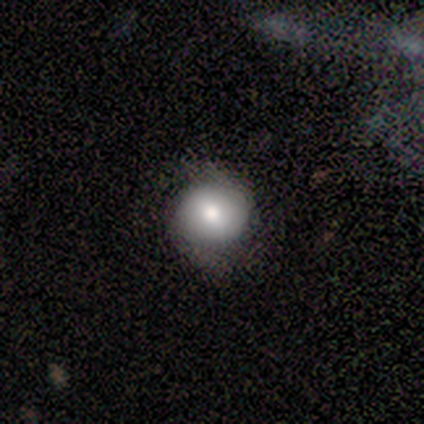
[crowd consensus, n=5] Morphology: type=featured or disk (60%); edge-on=no (100%); bar=no (67%); spiral arms=yes (100%); winding=tight (33%, tied with medium and loose); arm count=2 (100%); bulge=moderate (67%); merging=none (80%).